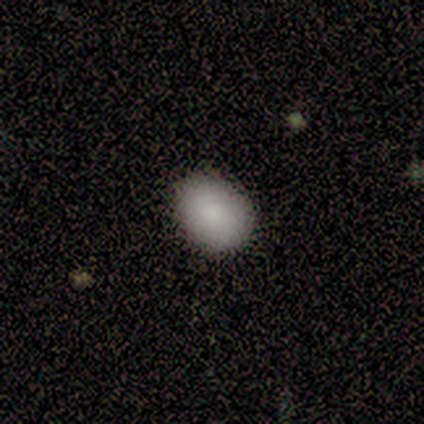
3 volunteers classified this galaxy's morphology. Q: Smooth or featured?
A: smooth (67%); runner-up: star or artifact (33%)
Q: How rounded?
A: round (100%)
Q: Merging?
A: none (100%)